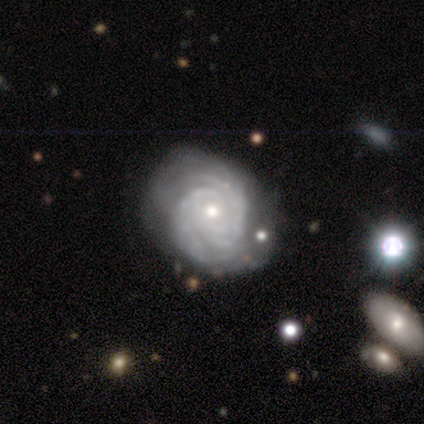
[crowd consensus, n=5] Smooth or featured?
  - featured or disk: 80% *
  - smooth: 20%
  - star or artifact: 0%
Edge-on disk?
  - no: 100% *
  - yes: 0%
Bar?
  - no: 100% *
  - strong: 0%
  - weak: 0%
Spiral arms?
  - yes: 100% *
  - no: 0%
Spiral winding?
  - tight: 75% *
  - medium: 25%
  - loose: 0%
Spiral arm count?
  - 2: 50% *
  - more than 4: 25%
  - can't tell: 25%
  - 1: 0%
  - 3: 0%
  - 4: 0%
Bulge size?
  - small: 75% *
  - moderate: 25%
  - dominant: 0%
  - large: 0%
  - none: 0%
Merging?
  - none: 60% *
  - minor disturbance: 20%
  - major disturbance: 20%
  - merger: 0%